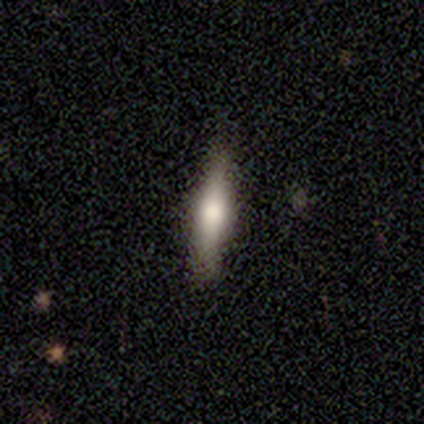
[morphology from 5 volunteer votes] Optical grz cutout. It shows a smooth galaxy with no disk features (60%) that is cigar-shaped (67%). Merging: none (60%).